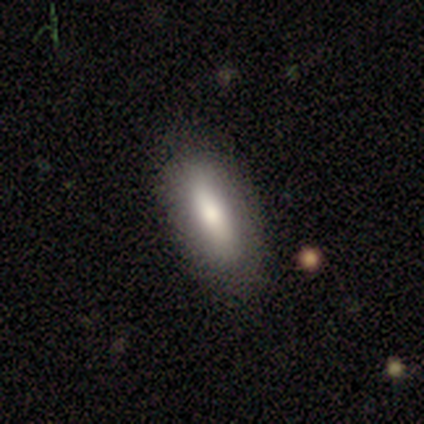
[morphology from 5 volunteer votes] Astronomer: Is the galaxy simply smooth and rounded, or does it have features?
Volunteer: smooth — 80%.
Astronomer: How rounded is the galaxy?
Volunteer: in between — 100%.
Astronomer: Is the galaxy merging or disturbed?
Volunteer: none — 100%.